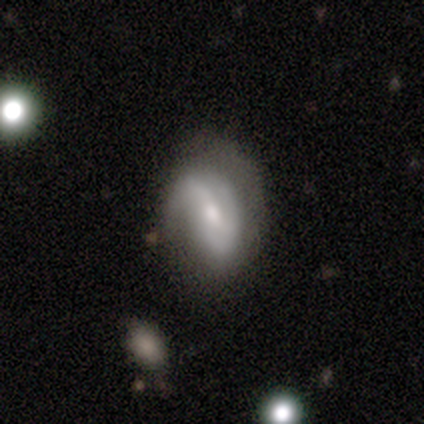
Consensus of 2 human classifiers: Q: Smooth or featured?
A: smooth (100%)
Q: How rounded?
A: in between (100%)
Q: Merging?
A: minor disturbance (50%); tied with: major disturbance (50%)